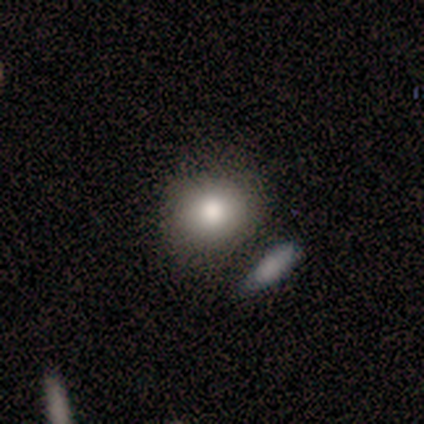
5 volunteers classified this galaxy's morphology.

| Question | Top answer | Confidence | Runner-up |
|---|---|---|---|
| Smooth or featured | smooth | 60% | featured or disk (20%) |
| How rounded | round | 67% | in between (33%) |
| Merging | none | 75% | merger (25%) |